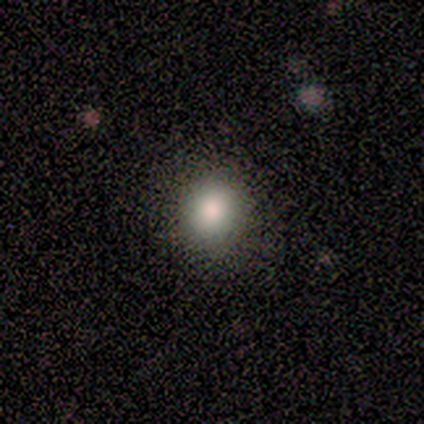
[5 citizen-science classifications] A smooth galaxy with no disk features (100%) that is round (80%).

Vote fractions:
- Smooth or featured? smooth: 100% / featured or disk: 0% / star or artifact: 0%
- How rounded? round: 80% / in between: 20% / cigar-shaped: 0%
- Merging? minor disturbance: 40% (tied) / major disturbance: 40% (tied) / none: 20% / merger: 0%